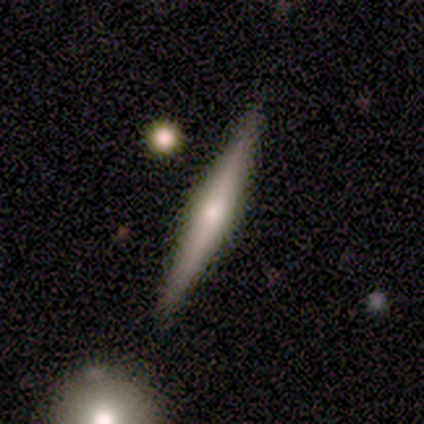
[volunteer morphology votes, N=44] Volunteers were most divided on "smooth or featured": featured or disk: 77%, smooth: 18%, star or artifact: 5%. More confident: edge-on disk — yes (97%); edge-on bulge — rounded (85%); merging — none (83%).